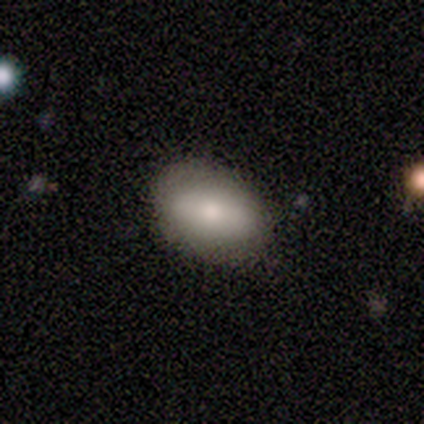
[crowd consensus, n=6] This appears to be a smooth galaxy with no disk features (100%) that is in between round and cigar-shaped (67%). Merging: none (67%).